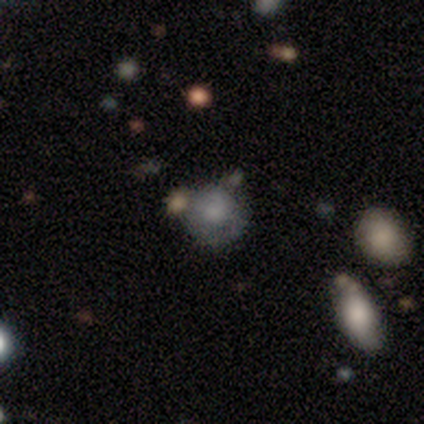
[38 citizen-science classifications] smooth_or_featured: smooth (p=0.63) [alt: featured or disk p=0.26]
how_rounded: round (p=0.88) [alt: in between p=0.12]
merging: none (p=0.71) [alt: minor disturbance p=0.21]